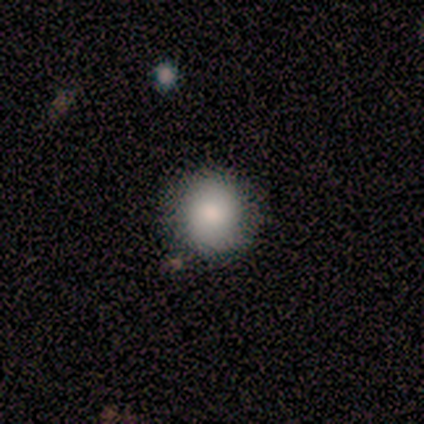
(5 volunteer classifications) This appears to be a smooth galaxy with no disk features (100%) that is round (100%). Merging: none (80%).